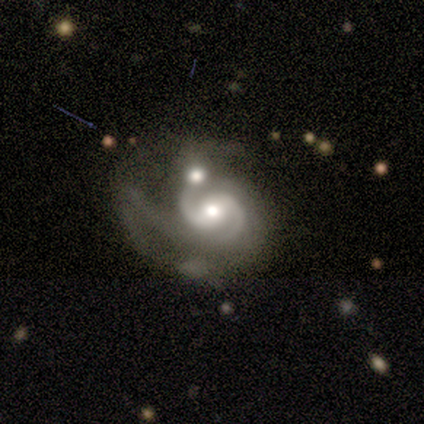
Q: Smooth or featured?
A: featured or disk (100%)
Q: Edge-on disk?
A: no (80%); runner-up: yes (20%)
Q: Bar?
A: weak (75%); runner-up: strong (25%)
Q: Spiral arms?
A: yes (100%)
Q: Spiral winding?
A: medium (75%); runner-up: loose (25%)
Q: Spiral arm count?
A: 2 (75%); runner-up: can't tell (25%)
Q: Bulge size?
A: dominant (25%); tied with: large (25%); moderate (25%); small (25%)
Q: Merging?
A: merger (100%)